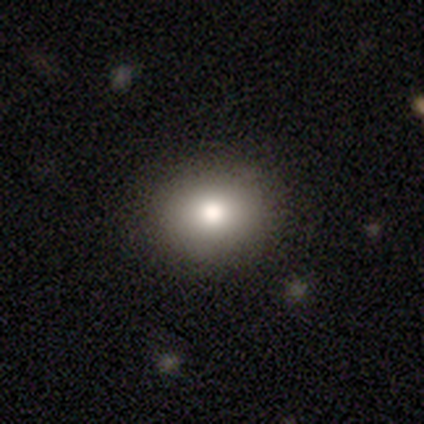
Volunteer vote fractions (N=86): A smooth galaxy with no disk features (80%) that is round (59%). Merging: none (96%).